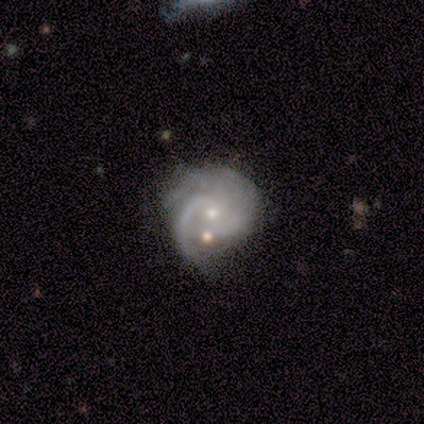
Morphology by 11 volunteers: Smooth or featured? featured or disk (100%)
Edge-on disk? no (100%)
Bar? no (82%)
Spiral arms? yes (100%)
Spiral winding? medium (55%)
Spiral arm count? 2 (45%)
Bulge size? small (45%)
Merging? none (55%)